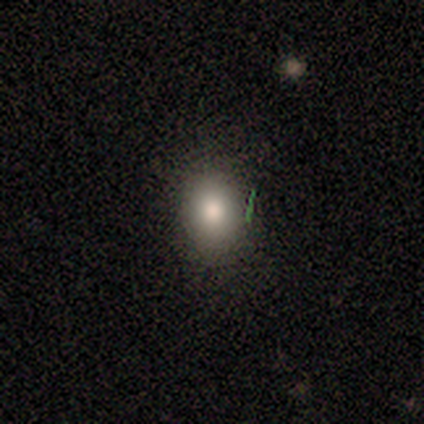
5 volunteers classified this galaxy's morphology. This appears to be a smooth galaxy with no disk features (80%) that is in between round and cigar-shaped (75%). Merging: none (80%).